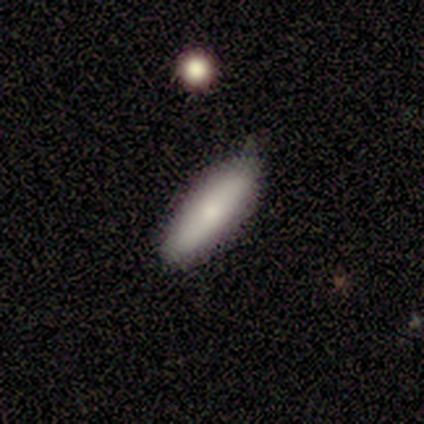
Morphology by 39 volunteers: Overall: smooth (77%). How rounded: cigar-shaped (57%; in between 43%). Merging: none (51%; minor disturbance 29%).